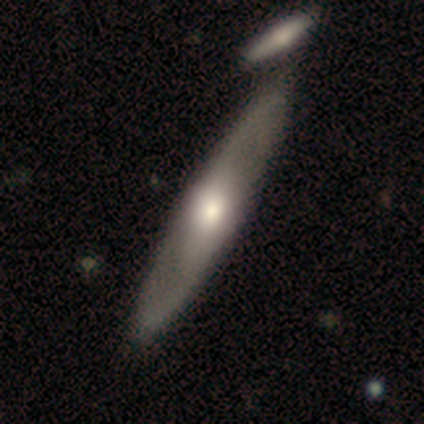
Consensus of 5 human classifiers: Volunteers were most divided on "bulge size" (3-way tie): dominant: 33%, large: 33%, moderate: 33%, small: 0%, none: 0%. More confident: smooth or featured — featured or disk (100%); spiral arms — yes (100%); spiral arm count — 2 (100%); merging — none (100%); bar — no (67%); spiral winding — medium (67%); edge-on disk — no (60%).